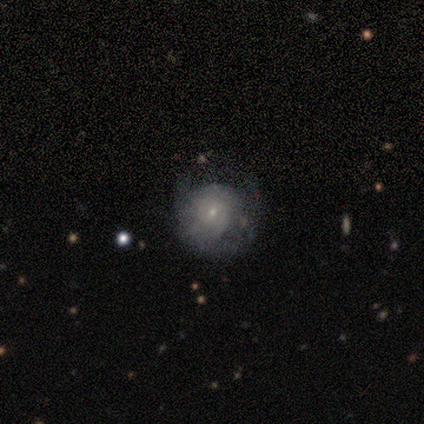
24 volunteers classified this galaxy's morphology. Smooth or featured? smooth (46%)
How rounded? round (100%)
Merging? none (50%)